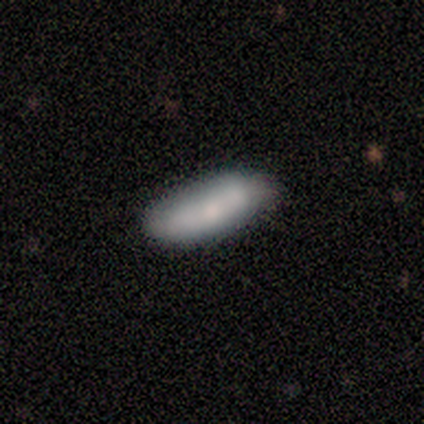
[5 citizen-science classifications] Morphology: type=smooth (60%); roundness=in between (67%); merging=none (80%).